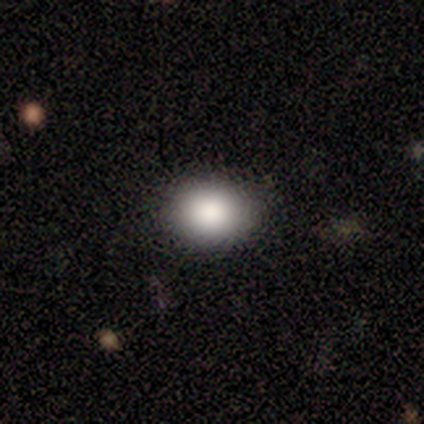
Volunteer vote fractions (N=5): Smooth or featured: smooth — 80% (star or artifact — 20%)
How rounded: round — 100%
Merging: none — 75% (minor disturbance — 25%)